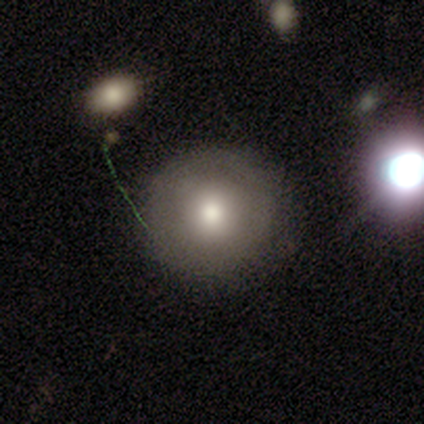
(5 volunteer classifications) Smooth or featured? smooth (80%)
How rounded? round (100%)
Merging? none (100%)